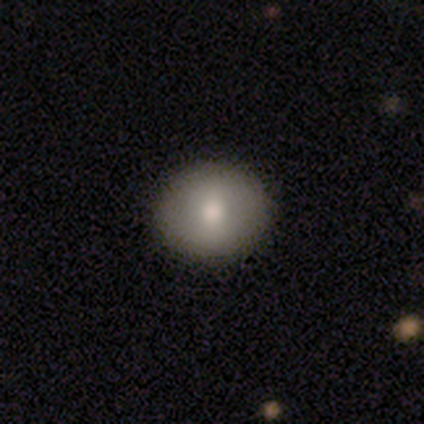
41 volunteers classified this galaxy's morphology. Overall: smooth (80%). How rounded: round (70%; in between 30%). Merging: none (69%).